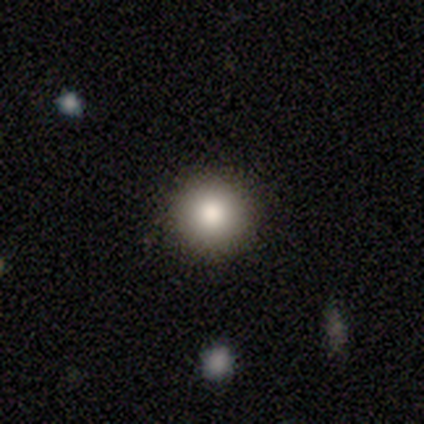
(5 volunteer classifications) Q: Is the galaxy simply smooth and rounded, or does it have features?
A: smooth — 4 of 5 (80%).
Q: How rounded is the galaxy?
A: round — 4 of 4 (100%).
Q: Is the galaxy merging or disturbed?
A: none — 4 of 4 (100%).